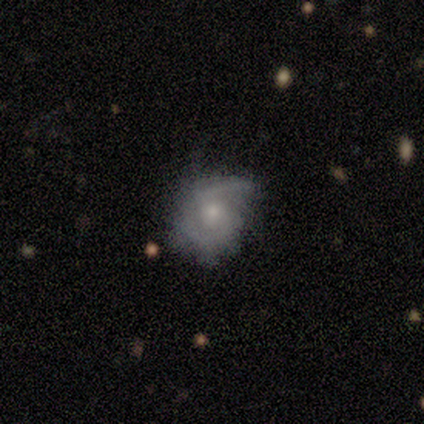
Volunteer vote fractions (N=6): This is clearly a featured or disk galaxy (100%). It is clearly not viewed edge-on (100%). Bar: clearly no (83%). Spiral arm pattern: likely yes (67%). Spiral arm count: likely can't tell (75%). Spiral winding: likely tight (75%). Central bulge: clearly small (83%). Merging: clearly none (83%).